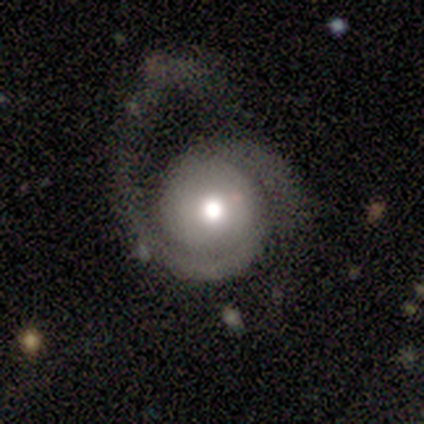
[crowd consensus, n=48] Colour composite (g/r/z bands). It shows a featured or disk galaxy (83%) with no bar (85%), 2 (82%) tight (38%) spiral arms (85%) and a moderate central bulge (62%). Merging: major disturbance (58%).